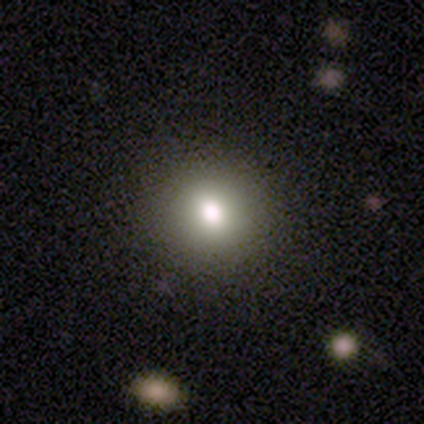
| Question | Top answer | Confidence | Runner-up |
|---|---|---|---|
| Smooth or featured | smooth | 87% | star or artifact (8%) |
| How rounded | round | 85% | in between (15%) |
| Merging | none | 94% | minor disturbance (3%) |